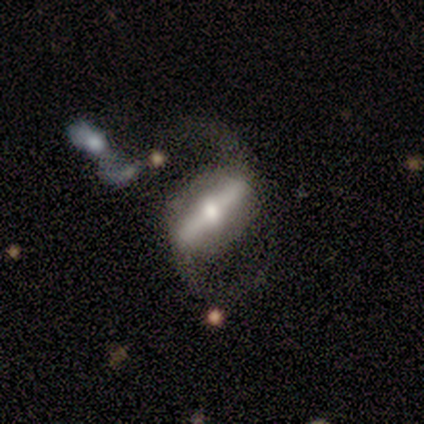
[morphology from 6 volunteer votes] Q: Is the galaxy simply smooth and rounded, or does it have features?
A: featured or disk — 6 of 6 (100%).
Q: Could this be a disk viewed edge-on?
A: no — 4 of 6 (67%).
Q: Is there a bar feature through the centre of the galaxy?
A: strong — 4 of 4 (100%).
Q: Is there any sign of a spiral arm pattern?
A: yes — 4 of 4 (100%).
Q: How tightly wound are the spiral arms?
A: medium — 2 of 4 (50%, tied with loose).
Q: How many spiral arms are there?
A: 2 — 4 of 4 (100%).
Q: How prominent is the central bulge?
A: moderate — 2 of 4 (50%).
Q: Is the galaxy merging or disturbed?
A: none — 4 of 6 (67%).